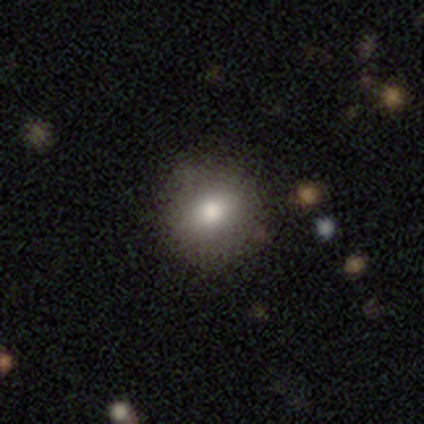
Volunteers were most divided on "smooth or featured": smooth: 60%, featured or disk: 40%, star or artifact: 0%. More confident: merging — none (80%); how rounded — round (67%).